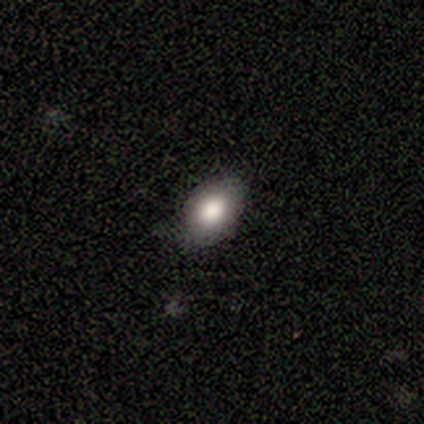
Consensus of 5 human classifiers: Smooth or featured? smooth (60%)
How rounded? in between (67%)
Merging? none (100%)